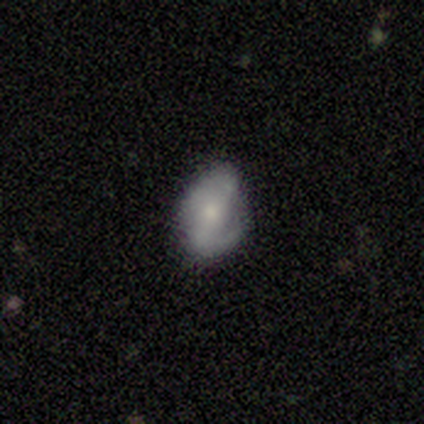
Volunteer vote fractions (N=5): smooth-or-featured: smooth: 60% | featured or disk: 20% | star or artifact: 20%
  how-rounded: in between: 100% | round: 0% | cigar-shaped: 0%
  merging: none: 75% | major disturbance: 25% | minor disturbance: 0% | merger: 0%